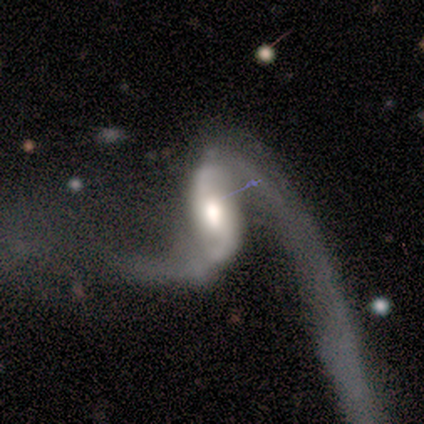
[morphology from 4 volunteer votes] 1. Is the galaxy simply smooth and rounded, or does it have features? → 75% featured or disk, 25% smooth, 0% star or artifact.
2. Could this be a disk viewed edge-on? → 67% no, 33% yes.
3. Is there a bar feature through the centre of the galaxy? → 100% strong, 0% weak, 0% no.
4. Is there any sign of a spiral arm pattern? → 100% yes, 0% no.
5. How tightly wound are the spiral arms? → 100% loose, 0% tight, 0% medium.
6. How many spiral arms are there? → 100% 2, 0% 1, 0% 3, 0% 4, 0% more than 4, 0% can't tell.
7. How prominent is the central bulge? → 100% large, 0% dominant, 0% moderate, 0% small, 0% none.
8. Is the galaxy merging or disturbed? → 50% none, 25% minor disturbance, 25% major disturbance, 0% merger.